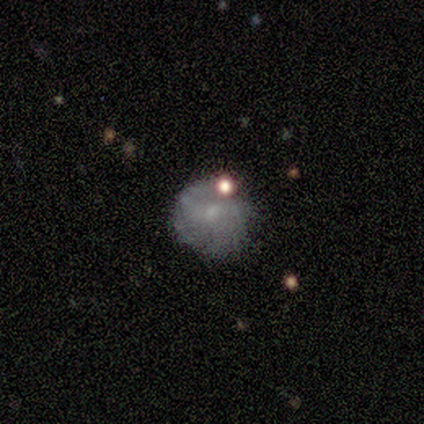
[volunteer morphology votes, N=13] This is possibly a featured or disk galaxy (46%). It is clearly not viewed edge-on (100%). Bar: clearly no (83%). Spiral arm pattern: possibly yes (50%, tied with no). Spiral arm count: clearly can't tell (100%). Spiral winding: likely tight (67%). Central bulge: possibly small (50%). Merging: possibly none (45%).